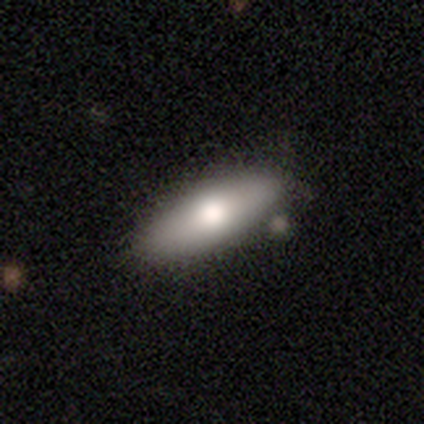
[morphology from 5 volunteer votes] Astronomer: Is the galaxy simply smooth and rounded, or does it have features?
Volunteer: smooth — 60% (runner-up: featured or disk, 40%).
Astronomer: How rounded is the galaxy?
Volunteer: cigar-shaped — 67%.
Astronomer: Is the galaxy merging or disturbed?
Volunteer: none — 100%.